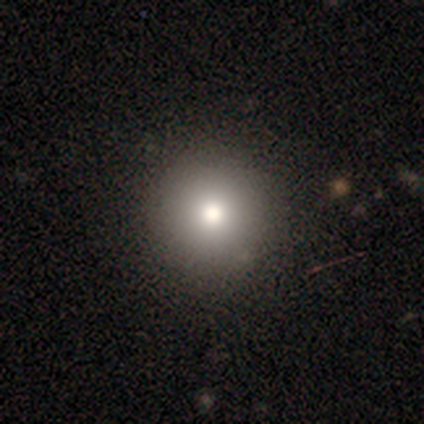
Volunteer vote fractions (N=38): Overall: smooth (84%). How rounded: round (97%). Merging: none (67%).